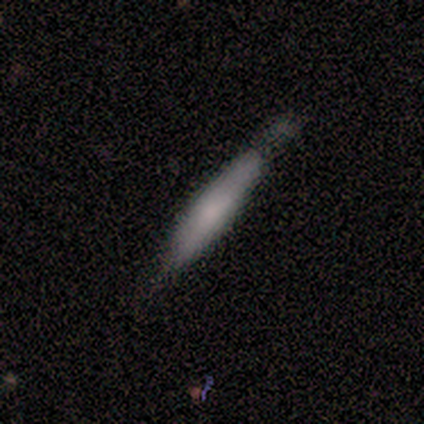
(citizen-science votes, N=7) smooth_or_featured: smooth (p=0.86) [alt: featured or disk p=0.14]
how_rounded: cigar-shaped (p=1.00)
merging: none (p=0.86) [alt: minor disturbance p=0.14]